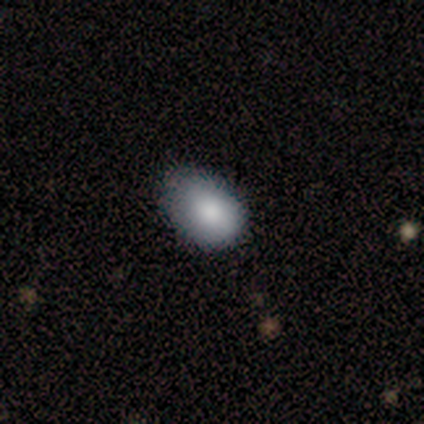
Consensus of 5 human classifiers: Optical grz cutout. It shows a smooth galaxy with no disk features (100%) that is in between round and cigar-shaped (100%). Merging: none (60%).